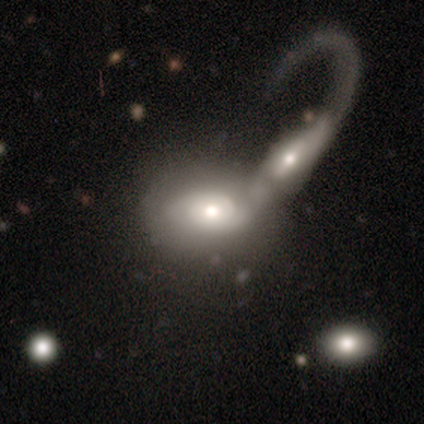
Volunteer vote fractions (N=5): featured or disk 80%, smooth 20%, star or artifact 0%. Down the decision tree: edge-on disk — no (100%); bar — no (100%); spiral arms — yes (75%); spiral arm count — 2 (67%); spiral winding — medium (67%); bulge size — moderate (75%); merging — merger (80%).